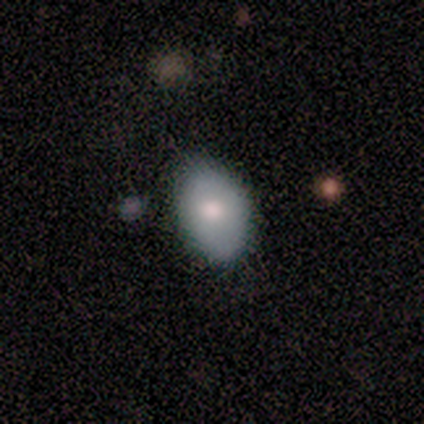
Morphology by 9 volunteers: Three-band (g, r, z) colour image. It shows a smooth galaxy with no disk features (67%) that is round (50%, tied with in between). Merging: none (88%).